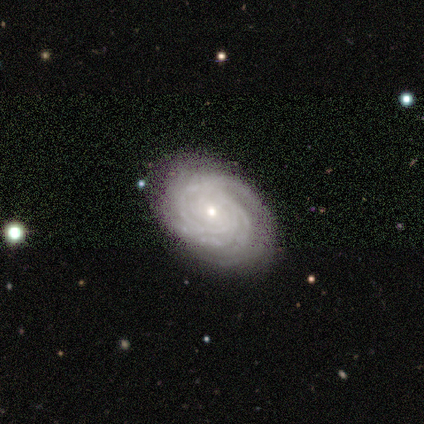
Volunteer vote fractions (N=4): Q: Smooth or featured?
A: featured or disk (50%); runner-up: smooth (25%)
Q: Edge-on disk?
A: no (100%)
Q: Bar?
A: no (100%)
Q: Spiral arms?
A: yes (100%)
Q: Spiral winding?
A: tight (100%)
Q: Spiral arm count?
A: 4 (50%); tied with: can't tell (50%)
Q: Bulge size?
A: small (100%)
Q: Merging?
A: none (100%)